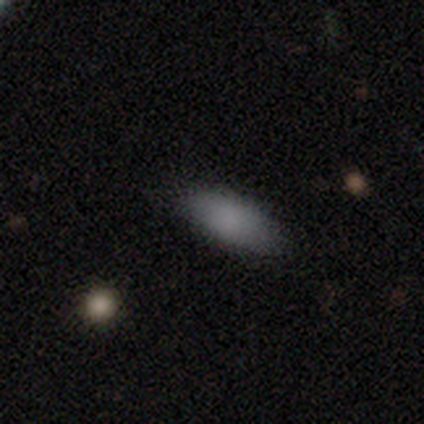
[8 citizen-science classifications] smooth-or-featured: smooth: 75% | star or artifact: 25% | featured or disk: 0%
  how-rounded: in between: 100% | round: 0% | cigar-shaped: 0%
  merging: none: 83% | minor disturbance: 17% | major disturbance: 0% | merger: 0%